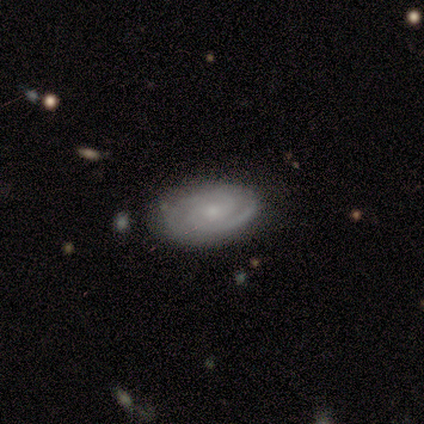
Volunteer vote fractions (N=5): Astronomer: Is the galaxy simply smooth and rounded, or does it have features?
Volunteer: featured or disk — 80%.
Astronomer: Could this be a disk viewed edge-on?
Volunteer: yes — 50%, tied with no at 50%.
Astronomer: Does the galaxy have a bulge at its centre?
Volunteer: boxy — 50%, tied with rounded at 50%.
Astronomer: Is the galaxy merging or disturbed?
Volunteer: none — 80%.